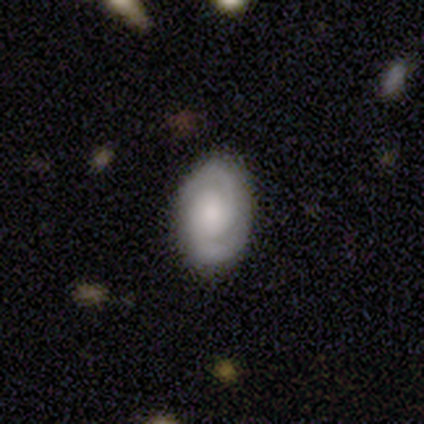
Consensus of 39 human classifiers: Morphology: type=featured or disk (69%); edge-on=no (100%); bar=no (63%); spiral arms=yes (100%); winding=tight (67%); arm count=2 (93%); bulge=moderate (41%); merging=none (86%).